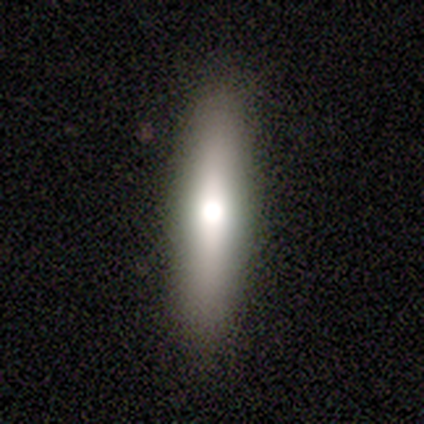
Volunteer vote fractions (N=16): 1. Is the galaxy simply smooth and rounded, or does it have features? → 62% smooth, 38% featured or disk, 0% star or artifact.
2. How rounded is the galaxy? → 90% cigar-shaped, 10% in between, 0% round.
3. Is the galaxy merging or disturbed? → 75% none, 19% minor disturbance, 6% major disturbance, 0% merger.